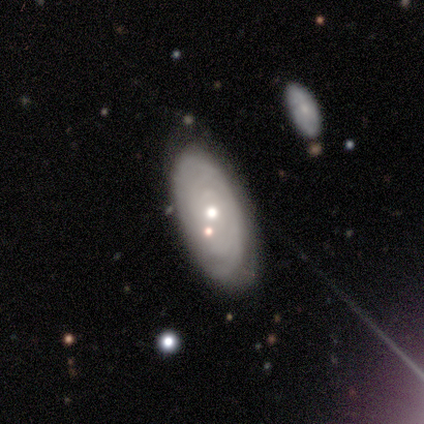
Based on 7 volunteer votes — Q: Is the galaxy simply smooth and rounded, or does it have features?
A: featured or disk — 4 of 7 (57%).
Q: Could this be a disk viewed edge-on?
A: no — 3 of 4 (75%).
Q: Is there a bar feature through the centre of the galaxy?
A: no — 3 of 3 (100%).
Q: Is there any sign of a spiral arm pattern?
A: yes — 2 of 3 (67%).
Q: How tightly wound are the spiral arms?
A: tight — 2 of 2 (100%).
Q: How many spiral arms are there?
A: can't tell — 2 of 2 (100%).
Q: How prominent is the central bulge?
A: small — 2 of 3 (67%).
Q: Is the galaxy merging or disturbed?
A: none — 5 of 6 (83%).